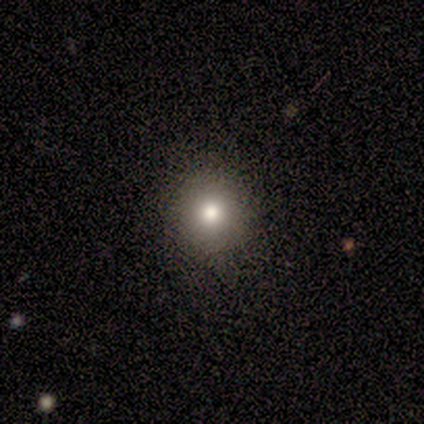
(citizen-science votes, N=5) smooth_or_featured: smooth (p=1.00)
how_rounded: round (p=0.80) [alt: in between p=0.20]
merging: none (p=1.00)